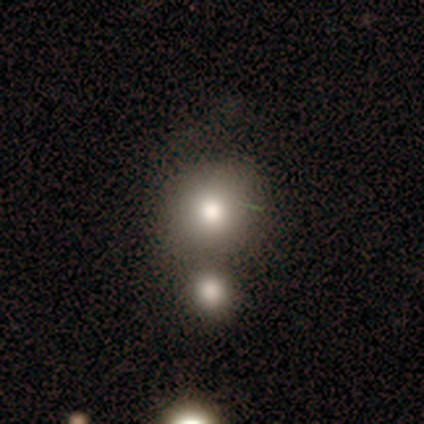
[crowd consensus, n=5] Overall: smooth (80%). How rounded: round (50%, tied with in between). Merging: minor disturbance (50%, tied with merger).